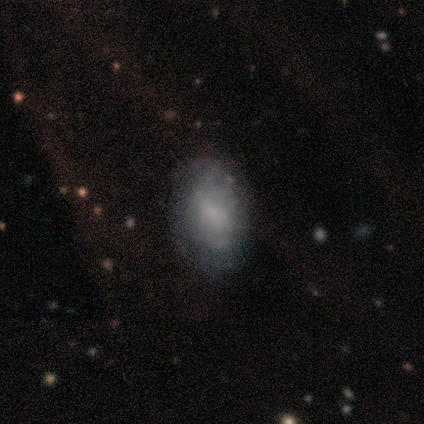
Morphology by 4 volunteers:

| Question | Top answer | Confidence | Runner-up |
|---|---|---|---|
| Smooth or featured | smooth | 50% | tied: featured or disk (50%) |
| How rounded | in between | 100% | — |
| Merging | none | 50% | minor disturbance (25%) |